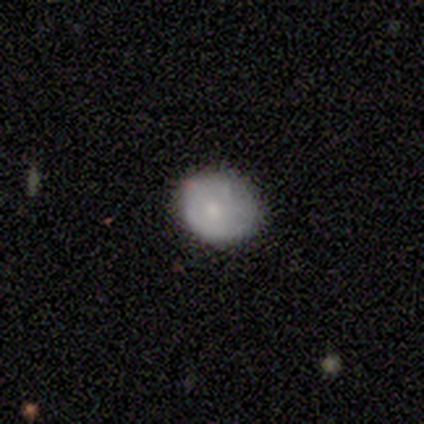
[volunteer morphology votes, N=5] Overall: smooth (60%; featured or disk 40%). How rounded: round (67%; in between 33%). Merging: none (60%; minor disturbance 40%).